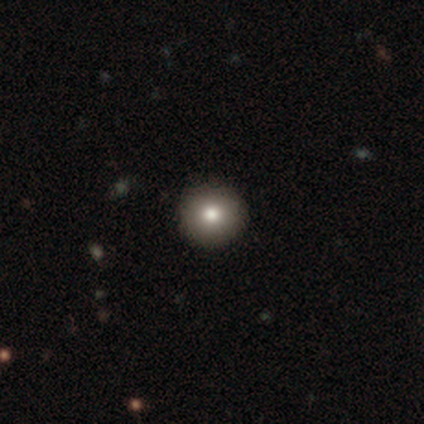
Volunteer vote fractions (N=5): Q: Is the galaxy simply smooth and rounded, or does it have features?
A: smooth — 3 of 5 (60%).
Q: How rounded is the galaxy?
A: round — 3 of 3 (100%).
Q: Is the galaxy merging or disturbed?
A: none — 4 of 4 (100%).